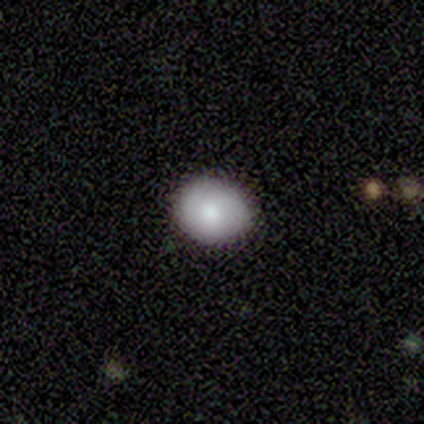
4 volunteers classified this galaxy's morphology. This is clearly a smooth galaxy (100%). How rounded: clearly round (100%). Merging: clearly none (100%).